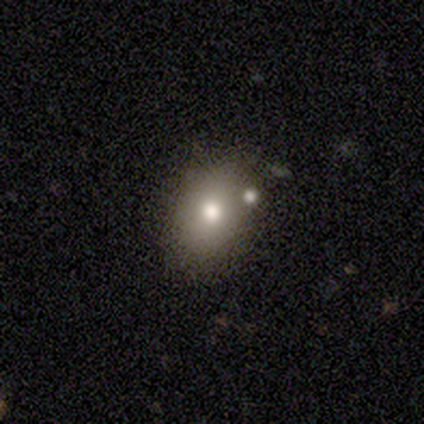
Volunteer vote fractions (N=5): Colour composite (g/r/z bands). It shows a smooth galaxy with no disk features (80%) that is round (50%, tied with in between). Merging: none (60%).